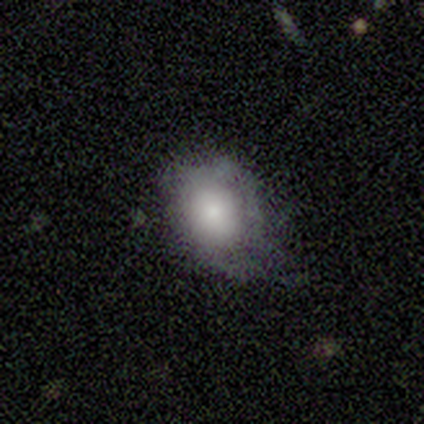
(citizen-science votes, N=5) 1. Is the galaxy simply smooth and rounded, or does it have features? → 80% smooth, 20% star or artifact, 0% featured or disk.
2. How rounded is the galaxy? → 50% round (tied), 50% in between (tied), 0% cigar-shaped.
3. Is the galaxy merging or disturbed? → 75% minor disturbance, 25% none, 0% major disturbance, 0% merger.